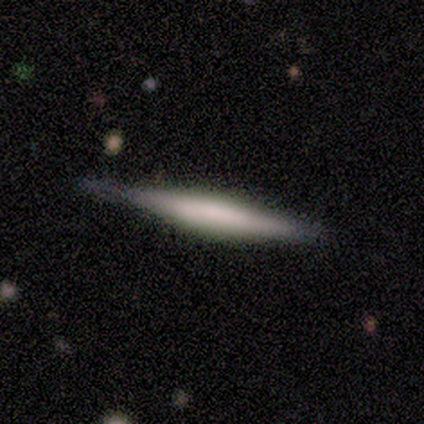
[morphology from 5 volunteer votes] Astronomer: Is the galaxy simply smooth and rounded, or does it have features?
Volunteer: featured or disk — 60% (runner-up: smooth, 40%).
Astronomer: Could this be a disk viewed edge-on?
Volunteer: yes — 100%.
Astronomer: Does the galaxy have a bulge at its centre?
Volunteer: rounded — 67%.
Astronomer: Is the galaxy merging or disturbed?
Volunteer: minor disturbance — 60% (runner-up: none, 40%).